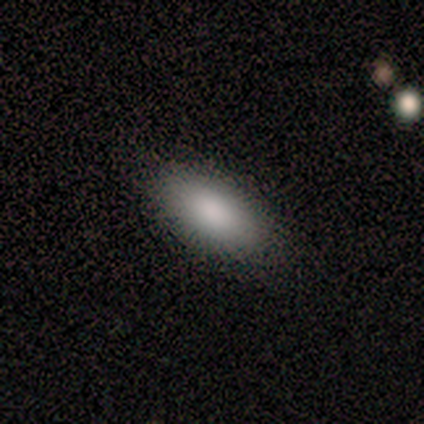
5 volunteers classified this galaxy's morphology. smooth 100%, featured or disk 0%, star or artifact 0%. Down the decision tree: how rounded — in between (100%); merging — none (100%).